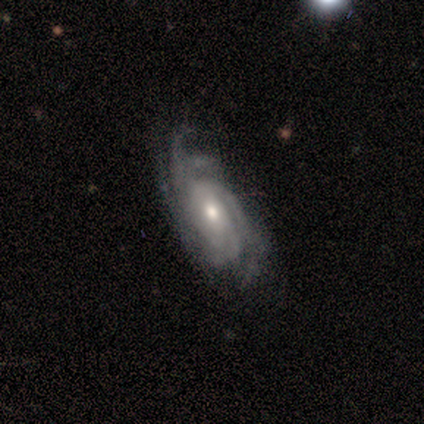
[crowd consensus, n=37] A featured or disk galaxy (92%) with no bar (79%), tight (52%) spiral arms (100%) and a moderate central bulge (70%). Merging: none (71%).